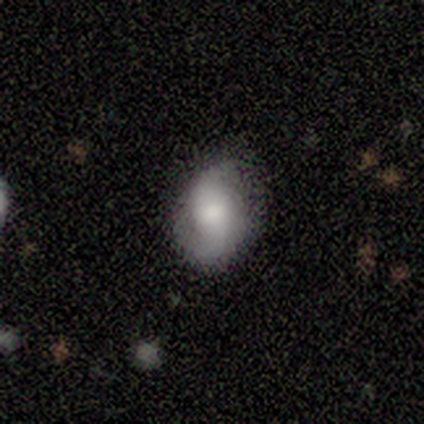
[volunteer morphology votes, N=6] Volunteers were most divided on "smooth or featured": smooth: 67%, featured or disk: 33%, star or artifact: 0%. More confident: how rounded — in between (100%); merging — none (83%).